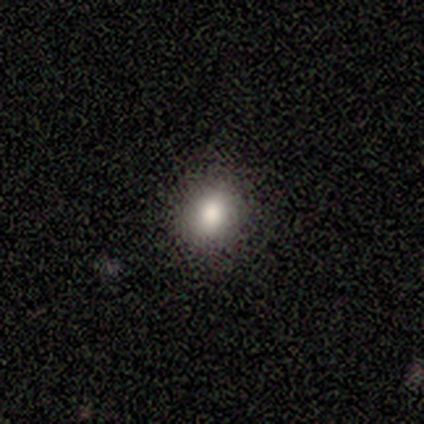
This is clearly a smooth galaxy (80%). How rounded: likely round (75%). Merging: clearly none (100%).